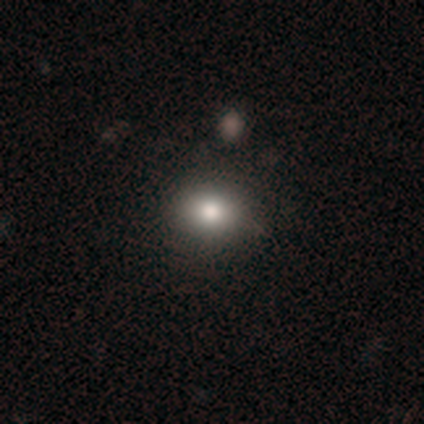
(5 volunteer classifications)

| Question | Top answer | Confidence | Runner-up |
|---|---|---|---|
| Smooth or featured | smooth | 40% | tied: star or artifact (40%) |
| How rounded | round | 50% | tied: in between (50%) |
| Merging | none | 100% | — |